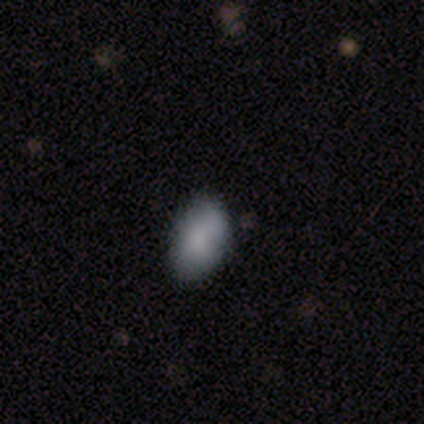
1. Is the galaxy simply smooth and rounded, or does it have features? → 100% smooth, 0% featured or disk, 0% star or artifact.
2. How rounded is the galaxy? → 80% in between, 20% round, 0% cigar-shaped.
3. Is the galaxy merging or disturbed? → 60% minor disturbance, 40% none, 0% major disturbance, 0% merger.